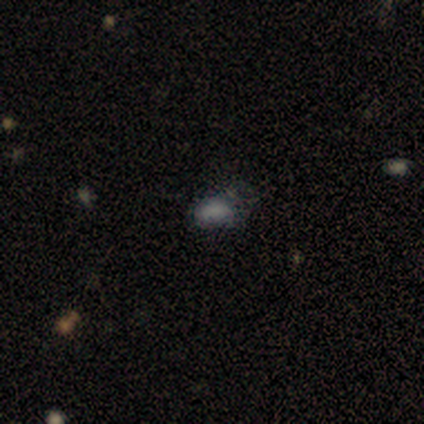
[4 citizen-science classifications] smooth 50%, featured or disk 25%, star or artifact 25%. Down the decision tree: how rounded — in between (100%); merging — none (67%).